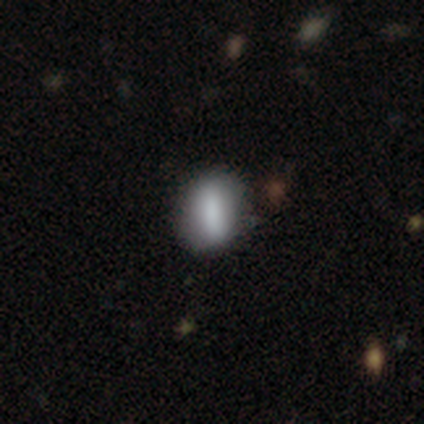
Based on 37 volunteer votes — Smooth or featured? smooth (68%)
How rounded? in between (72%)
Merging? none (68%)